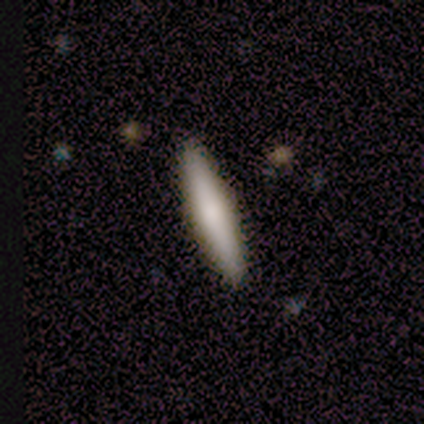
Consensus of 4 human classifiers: Smooth or featured? smooth (75%)
How rounded? cigar-shaped (100%)
Merging? none (100%)